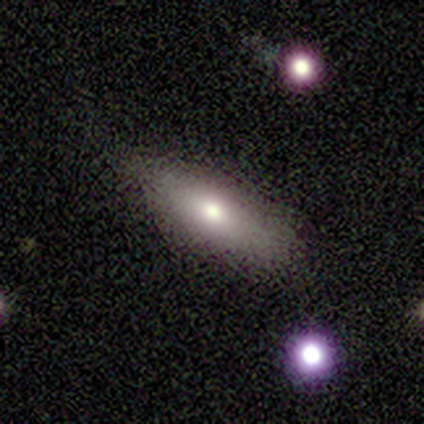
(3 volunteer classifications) smooth-or-featured: smooth: 100% | featured or disk: 0% | star or artifact: 0%
  how-rounded: in between: 100% | round: 0% | cigar-shaped: 0%
  merging: none: 67% | major disturbance: 33% | minor disturbance: 0% | merger: 0%